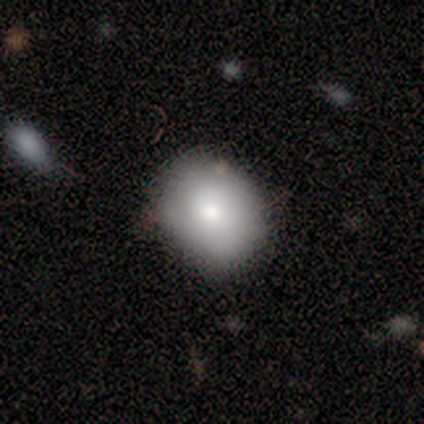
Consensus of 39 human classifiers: Morphology: type=smooth (82%); roundness=round (66%); merging=none (84%).